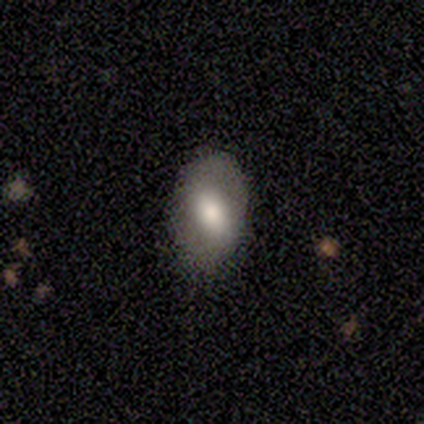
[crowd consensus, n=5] Morphology: type=smooth (80%); roundness=in between (100%); merging=none (100%).